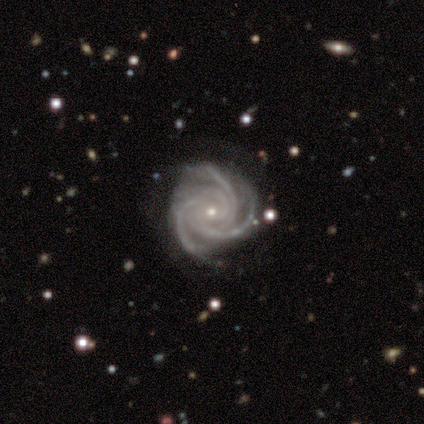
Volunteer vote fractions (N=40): Smooth or featured?
  - featured or disk: 88% *
  - star or artifact: 10%
  - smooth: 2%
Edge-on disk?
  - no: 97% *
  - yes: 3%
Bar?
  - no: 76% *
  - weak: 15%
  - strong: 9%
Spiral arms?
  - yes: 100% *
  - no: 0%
Spiral winding?
  - tight: 71% *
  - medium: 26%
  - loose: 3%
Spiral arm count?
  - 3: 71% *
  - 4: 24%
  - more than 4: 3%
  - can't tell: 3%
  - 1: 0%
  - 2: 0%
Bulge size?
  - small: 76% *
  - moderate: 24%
  - dominant: 0%
  - large: 0%
  - none: 0%
Merging?
  - none: 75% *
  - minor disturbance: 19%
  - major disturbance: 3%
  - merger: 3%